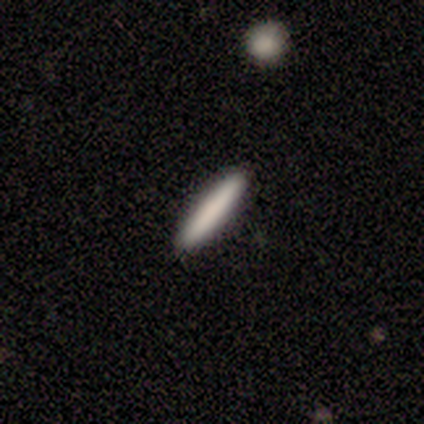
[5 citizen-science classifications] smooth-or-featured: smooth: 60% | featured or disk: 20% | star or artifact: 20%
  how-rounded: cigar-shaped: 100% | round: 0% | in between: 0%
  merging: none: 100% | minor disturbance: 0% | major disturbance: 0% | merger: 0%